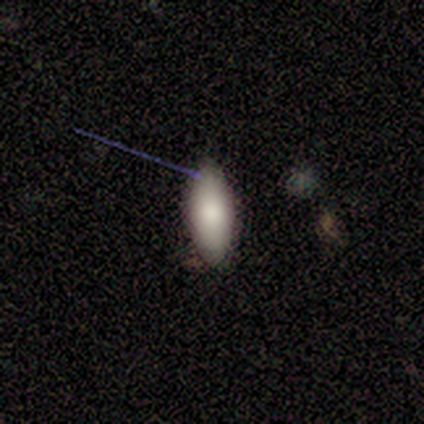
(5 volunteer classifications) Consensus on every question: smooth or featured — smooth (100%); how rounded — in between (100%); merging — none (100%).